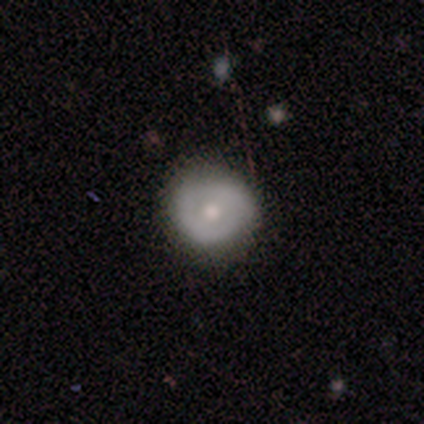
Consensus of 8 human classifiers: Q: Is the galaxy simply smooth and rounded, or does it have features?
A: smooth — 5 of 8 (62%).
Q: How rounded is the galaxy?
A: round — 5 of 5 (100%).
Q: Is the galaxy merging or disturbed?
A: none — 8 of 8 (100%).